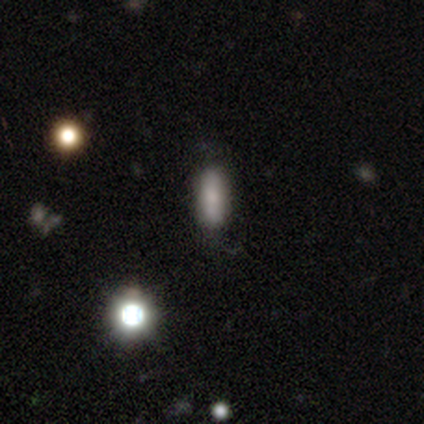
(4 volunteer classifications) Morphology: type=smooth (75%); roundness=cigar-shaped (100%); merging=none (50%, tied with minor disturbance).